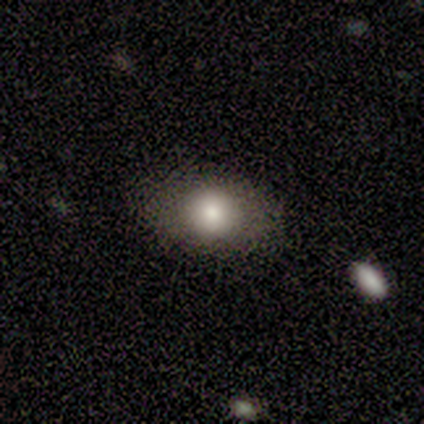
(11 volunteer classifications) Smooth or featured? 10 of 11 (91%) said smooth. How rounded? 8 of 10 (80%) said in between. Merging? 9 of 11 (82%) said none.